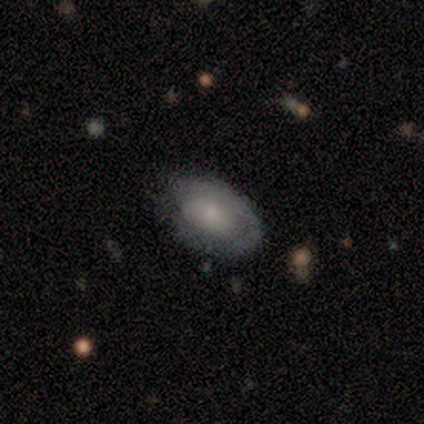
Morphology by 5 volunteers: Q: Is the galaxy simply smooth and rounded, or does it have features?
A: smooth — 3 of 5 (60%).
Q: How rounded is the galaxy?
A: in between — 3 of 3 (100%).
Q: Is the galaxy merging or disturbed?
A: none — 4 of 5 (80%).